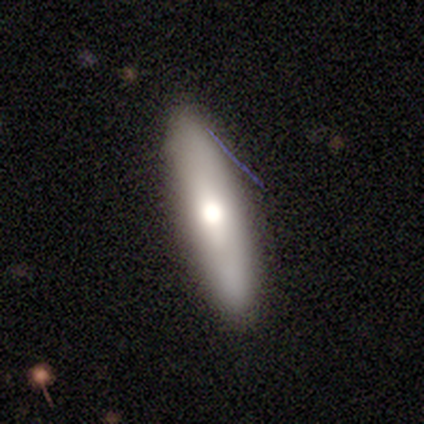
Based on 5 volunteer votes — Smooth or featured: smooth — 40% (tied with featured or disk — 40%)
How rounded: cigar-shaped — 100%
Merging: none — 50% (tied with minor disturbance — 50%)